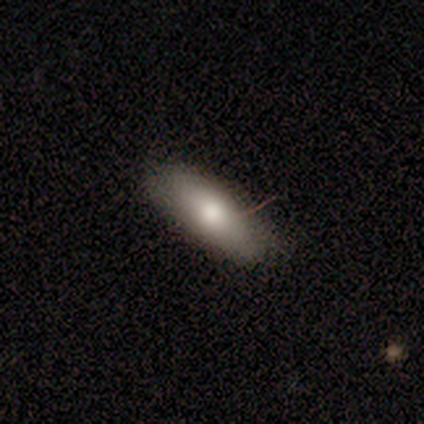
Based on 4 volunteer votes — Smooth or featured?
  - smooth: 75% *
  - featured or disk: 25%
  - star or artifact: 0%
How rounded?
  - cigar-shaped: 67% *
  - in between: 33%
  - round: 0%
Merging?
  - none: 100% *
  - minor disturbance: 0%
  - major disturbance: 0%
  - merger: 0%